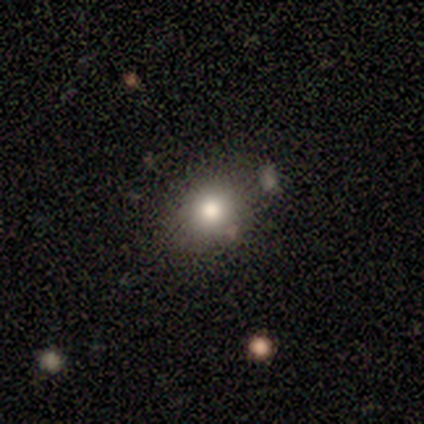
smooth 80%, featured or disk 20%, star or artifact 0%. Down the decision tree: how rounded — round (50%, tied with in between); merging — none (60%).